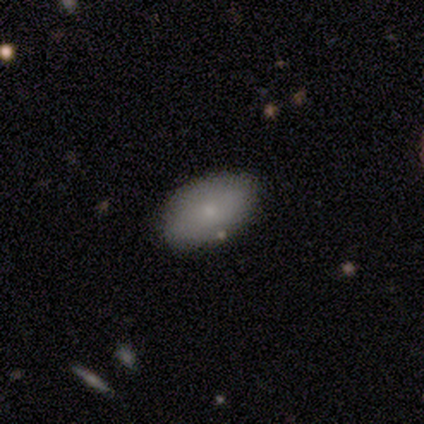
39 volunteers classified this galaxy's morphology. Overall: smooth (79%). How rounded: in between (90%). Merging: none (81%).